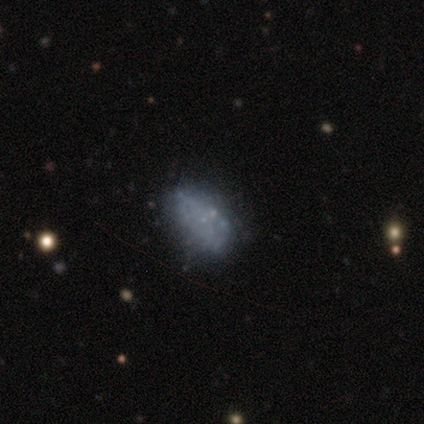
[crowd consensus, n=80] A featured or disk galaxy (55%) with no bar (95%), no spiral arms (95%) and no central bulge (91%). Merging: none (29%).